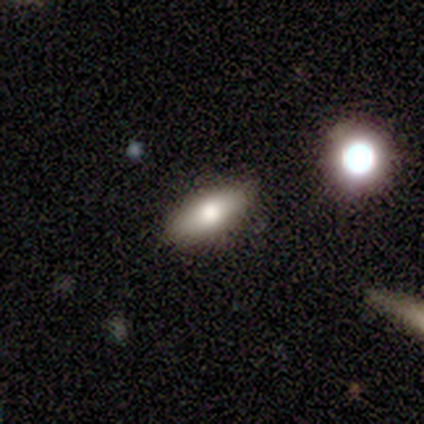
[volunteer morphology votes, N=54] Volunteers were most divided on "smooth or featured": smooth: 74%, featured or disk: 22%, star or artifact: 4%. More confident: merging — none (87%); how rounded — in between (75%).